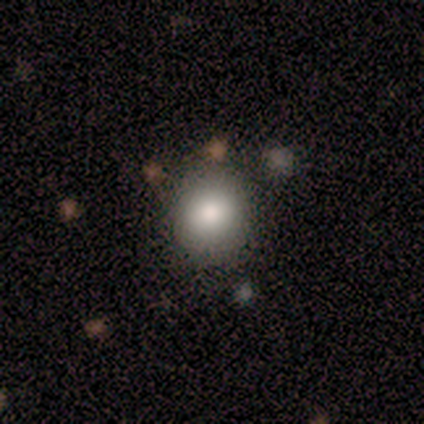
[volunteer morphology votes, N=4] Q: Smooth or featured?
A: smooth (75%); runner-up: featured or disk (25%)
Q: How rounded?
A: in between (67%); runner-up: round (33%)
Q: Merging?
A: none (100%)